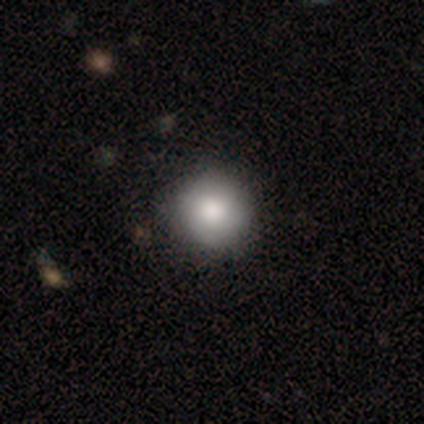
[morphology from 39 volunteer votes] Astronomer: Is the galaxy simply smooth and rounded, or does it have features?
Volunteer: smooth — 74%.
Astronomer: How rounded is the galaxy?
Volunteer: round — 93%.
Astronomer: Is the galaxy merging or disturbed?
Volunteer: none — 69%.